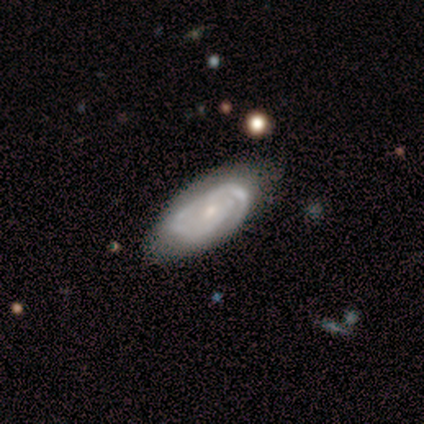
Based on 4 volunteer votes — smooth_or_featured: featured or disk (p=0.75) [alt: smooth p=0.25]
disk_edge_on: no (p=1.00)
bar: no (p=1.00)
has_spiral_arms: yes (p=1.00)
spiral_winding: tight (p=1.00)
spiral_arm_count: 2 (p=0.67) [alt: can't tell p=0.33]
bulge_size: moderate (p=0.67) [alt: small p=0.33]
merging: none (p=0.50) [tied with: minor disturbance p=0.50]